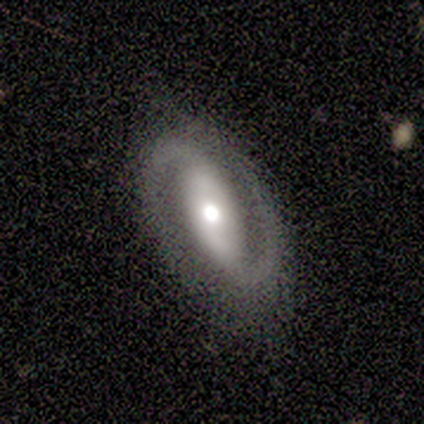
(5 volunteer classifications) Morphology: type=featured or disk (100%); edge-on=no (100%); bar=strong (40%, tied with no); spiral arms=yes (100%); winding=tight (40%, tied with loose); arm count=2 (100%); bulge=moderate (40%, tied with small); merging=none (80%).